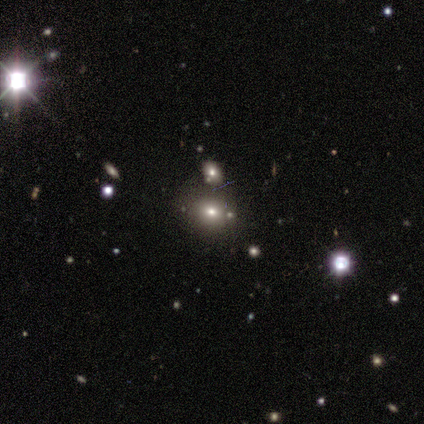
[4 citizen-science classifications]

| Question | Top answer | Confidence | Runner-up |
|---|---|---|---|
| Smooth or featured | star or artifact | 75% | smooth (25%) |